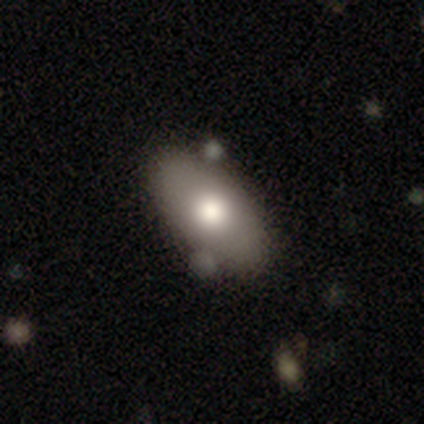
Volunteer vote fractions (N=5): smooth_or_featured: featured or disk (p=0.80) [alt: smooth p=0.20]
disk_edge_on: no (p=1.00)
bar: no (p=1.00)
has_spiral_arms: no (p=1.00)
bulge_size: large (p=0.50) [tied with: moderate p=0.50]
merging: none (p=0.80) [alt: merger p=0.20]